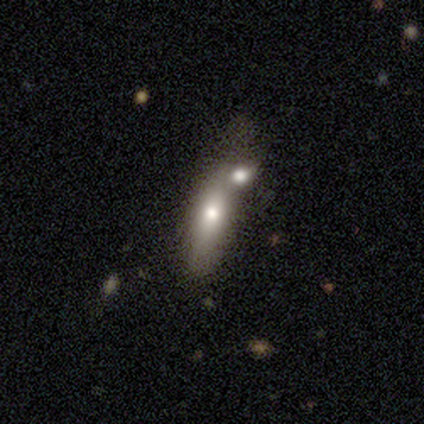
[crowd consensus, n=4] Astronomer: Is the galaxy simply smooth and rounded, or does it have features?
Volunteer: smooth — 75%.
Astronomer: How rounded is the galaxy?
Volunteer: round — 33%, tied with in between and cigar-shaped at 33%.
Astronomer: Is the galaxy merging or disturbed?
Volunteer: merger — 100%.